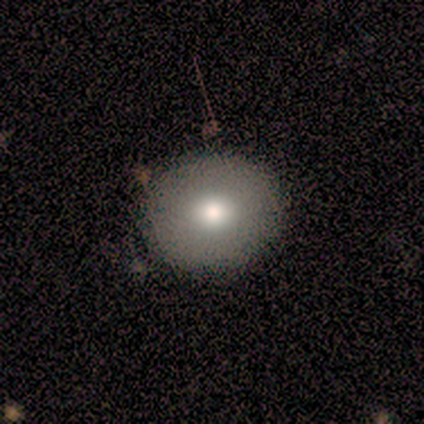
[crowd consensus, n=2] Overall: smooth (100%). How rounded: round (100%). Merging: none (100%).